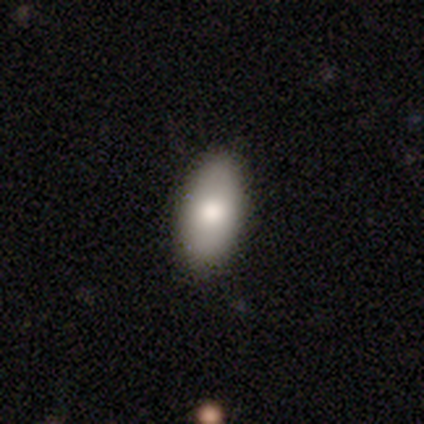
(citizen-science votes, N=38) Smooth or featured?
  - smooth: 84% *
  - featured or disk: 13%
  - star or artifact: 3%
How rounded?
  - in between: 91% *
  - cigar-shaped: 6%
  - round: 3%
Merging?
  - none: 86% *
  - minor disturbance: 14%
  - major disturbance: 0%
  - merger: 0%